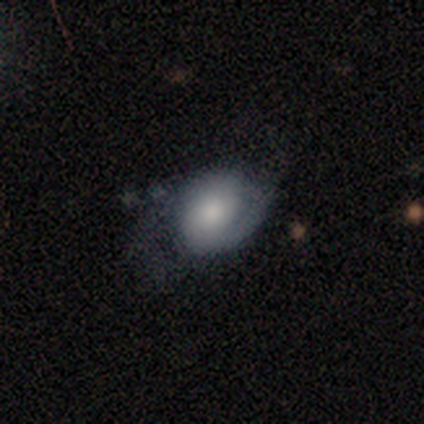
Overall: smooth (46%, tied with featured or disk). How rounded: in between (77%). Merging: none (35%; major disturbance 34%).